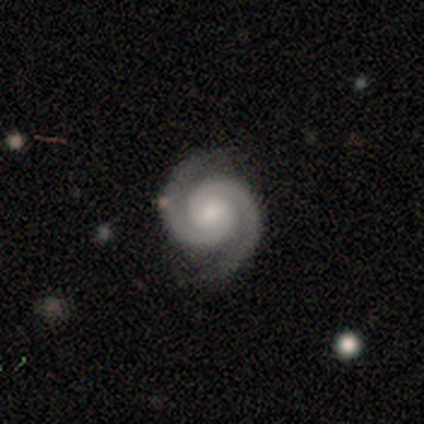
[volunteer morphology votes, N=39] Smooth or featured? featured or disk (97%)
Edge-on disk? no (97%)
Bar? no (57%)
Spiral arms? yes (100%)
Spiral winding? tight (76%)
Spiral arm count? 2 (97%)
Bulge size? moderate (49%)
Merging? none (84%)